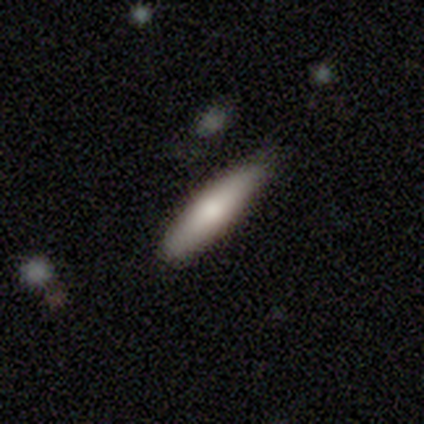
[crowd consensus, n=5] Smooth or featured? 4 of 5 (80%) said smooth. How rounded? 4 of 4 (100%) said cigar-shaped. Merging? 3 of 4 (75%) said none.